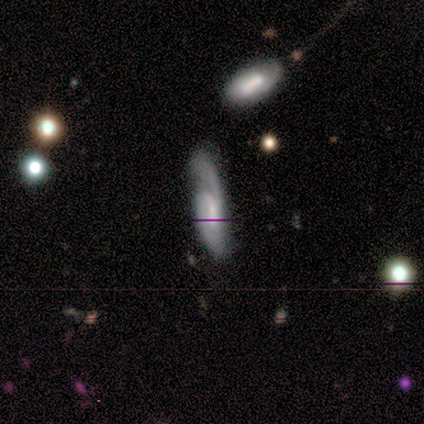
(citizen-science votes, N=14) Volunteers were most divided on "bar": no: 60%, weak: 40%, strong: 0%. More confident: spiral arms — yes (80%); spiral winding — loose (75%); edge-on disk — no (71%); bulge size — moderate (60%); merging — none (60%); smooth or featured — featured or disk (50%); spiral arm count — 1 (50%).